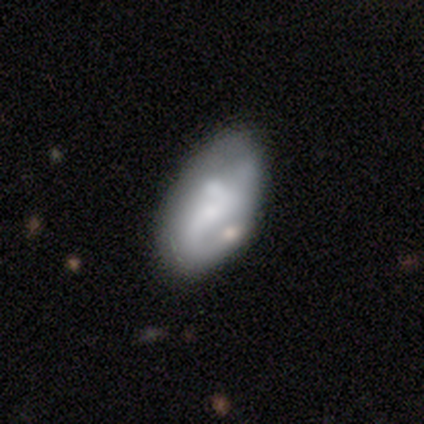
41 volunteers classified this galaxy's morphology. Q: Smooth or featured?
A: featured or disk (54%); runner-up: smooth (41%)
Q: Edge-on disk?
A: no (100%)
Q: Bar?
A: no (59%); runner-up: weak (27%)
Q: Spiral arms?
A: yes (59%); runner-up: no (41%)
Q: Spiral winding?
A: loose (54%); runner-up: medium (31%)
Q: Spiral arm count?
A: 1 (46%); tied with: 2 (46%)
Q: Bulge size?
A: small (45%); runner-up: large (18%)
Q: Merging?
A: none (54%); runner-up: minor disturbance (21%)